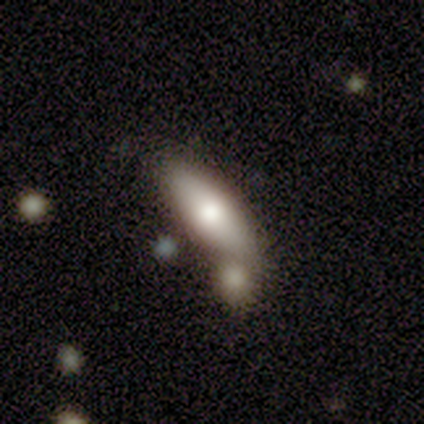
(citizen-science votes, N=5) Morphology: type=smooth (100%); roundness=in between (80%); merging=merger (60%).